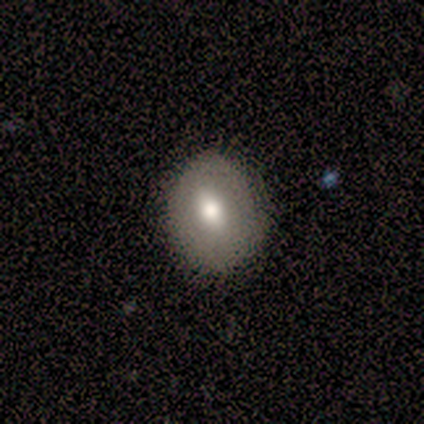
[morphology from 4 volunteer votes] Smooth or featured?
  - smooth: 75% *
  - featured or disk: 25%
  - star or artifact: 0%
How rounded?
  - in between: 67% *
  - round: 33%
  - cigar-shaped: 0%
Merging?
  - none: 50% * (tied)
  - minor disturbance: 50% * (tied)
  - major disturbance: 0%
  - merger: 0%